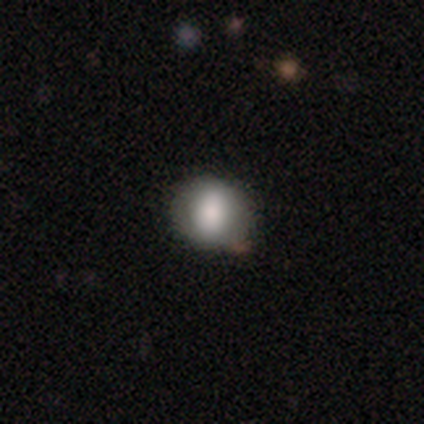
Smooth or featured: smooth — 89% (featured or disk — 8%)
How rounded: round — 76% (in between — 24%)
Merging: none — 39% (minor disturbance — 8%)